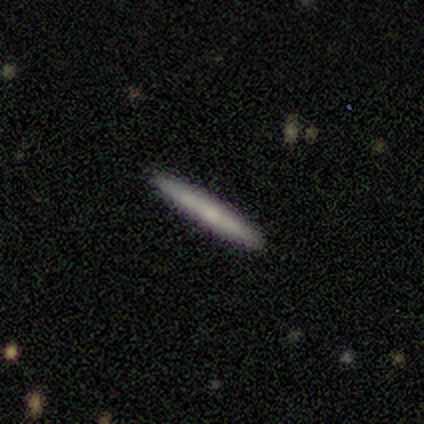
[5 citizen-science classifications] This appears to be a smooth galaxy with no disk features (80%) that is cigar-shaped (75%). Merging: none (100%).